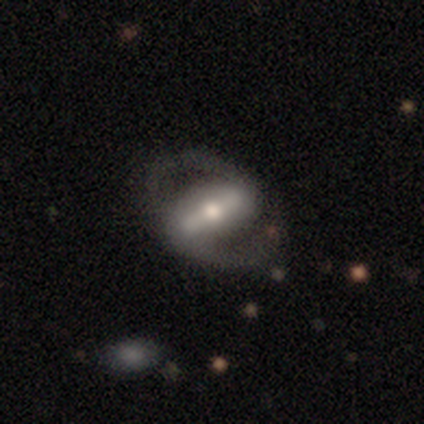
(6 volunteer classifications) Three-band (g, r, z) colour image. It shows a featured or disk galaxy (83%) with a strong bar (60%), 2 (100%) medium (50%) spiral arms (80%) and a moderate central bulge (40%, tied with small). Merging: none (83%).